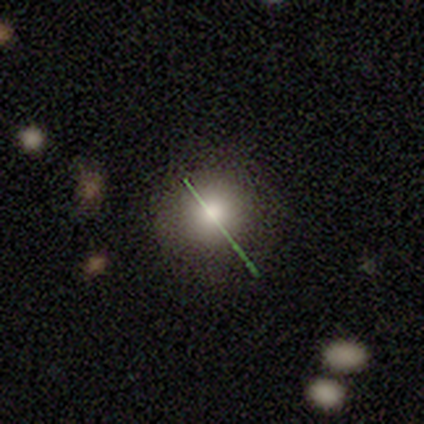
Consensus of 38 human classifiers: Smooth or featured: smooth — 68% (featured or disk — 16%)
How rounded: round — 96% (in between — 4%)
Merging: none — 94% (major disturbance — 6%)